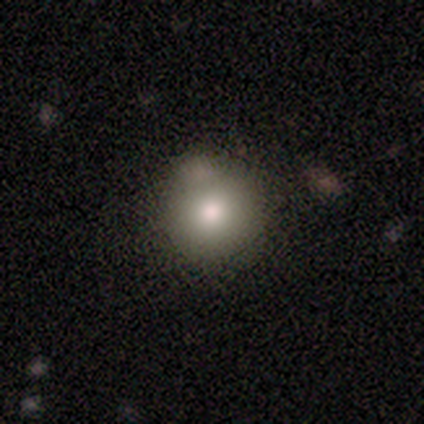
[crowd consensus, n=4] A smooth galaxy with no disk features (75%) that is round (67%).

Vote fractions:
- Smooth or featured? smooth: 75% / featured or disk: 25% / star or artifact: 0%
- How rounded? round: 67% / in between: 33% / cigar-shaped: 0%
- Merging? none: 75% / merger: 25% / minor disturbance: 0% / major disturbance: 0%